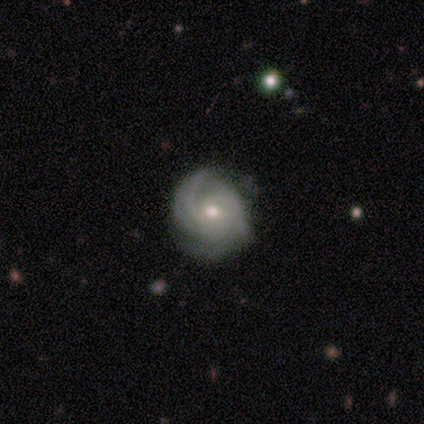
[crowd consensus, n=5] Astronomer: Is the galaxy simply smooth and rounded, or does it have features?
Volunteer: featured or disk — 100%.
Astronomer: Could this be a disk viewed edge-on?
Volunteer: no — 100%.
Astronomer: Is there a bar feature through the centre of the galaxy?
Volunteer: no — 60% (runner-up: weak, 40%).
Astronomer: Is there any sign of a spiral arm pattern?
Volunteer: yes — 100%.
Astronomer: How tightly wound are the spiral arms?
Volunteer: tight — 100%.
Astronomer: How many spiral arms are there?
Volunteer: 2 — 80%.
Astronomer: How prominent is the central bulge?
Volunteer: moderate — 80%.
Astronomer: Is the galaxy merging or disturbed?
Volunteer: none — 60% (runner-up: minor disturbance, 40%).